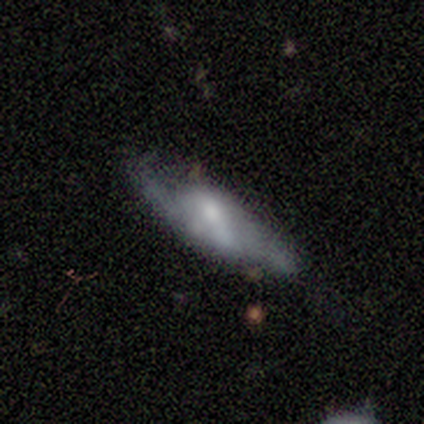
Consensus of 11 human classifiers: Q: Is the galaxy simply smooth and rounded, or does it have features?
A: featured or disk — 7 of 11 (64%).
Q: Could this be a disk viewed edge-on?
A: no — 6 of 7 (86%).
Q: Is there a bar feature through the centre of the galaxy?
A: no — 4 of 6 (67%).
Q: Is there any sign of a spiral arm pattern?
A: yes — 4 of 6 (67%).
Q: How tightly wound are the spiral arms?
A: loose — 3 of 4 (75%).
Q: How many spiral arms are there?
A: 2 — 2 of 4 (50%).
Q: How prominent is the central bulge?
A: large — 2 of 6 (33%, tied with small).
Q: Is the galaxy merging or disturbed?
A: none — 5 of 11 (45%).